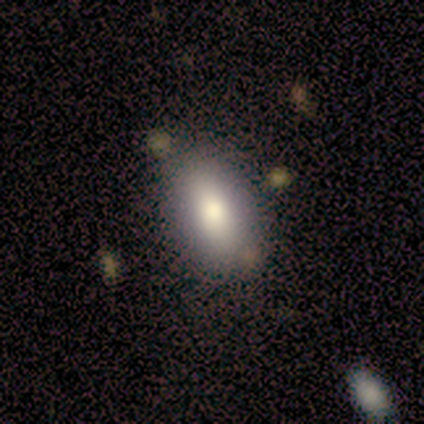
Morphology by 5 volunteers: type=smooth (100%); roundness=in between (100%); merging=none (100%).